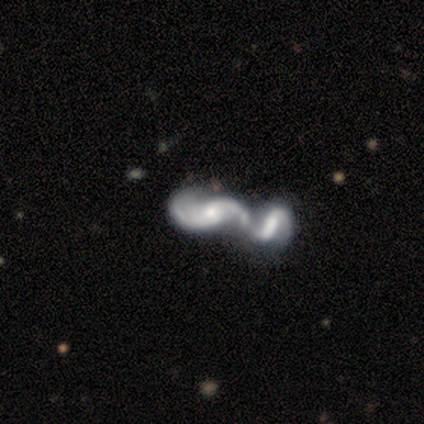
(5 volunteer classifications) Smooth or featured: featured or disk — 80% (smooth — 20%)
Edge-on disk: no — 100%
Bar: strong — 50% (weak — 25%)
Spiral arms: yes — 100%
Spiral winding: loose — 75% (medium — 25%)
Spiral arm count: 2 — 100%
Bulge size: moderate — 75% (small — 25%)
Merging: merger — 80% (major disturbance — 20%)